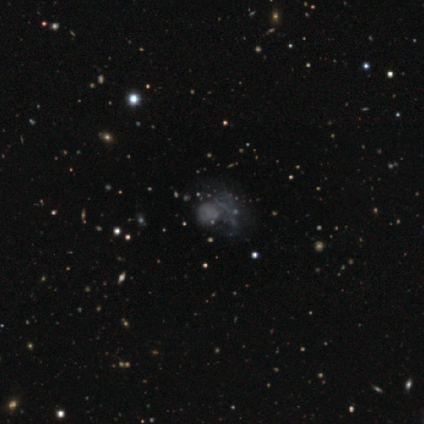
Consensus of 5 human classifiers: Smooth or featured? 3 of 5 (60%) said featured or disk. Edge-on disk? 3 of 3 (100%) said no. Bar? 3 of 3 (100%) said no. Spiral arms? 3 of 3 (100%) said no. Bulge size? 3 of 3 (100%) said none. Merging? 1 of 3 (33%, tied with minor disturbance and major disturbance) said none.